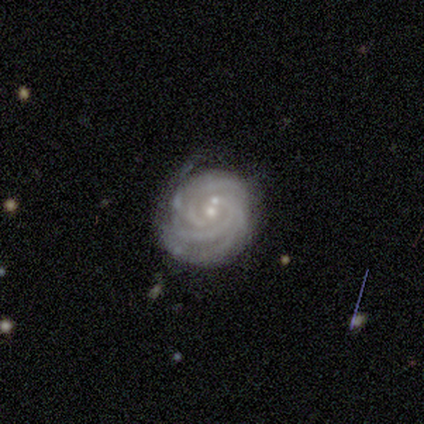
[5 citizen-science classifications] Smooth or featured? featured or disk (100%)
Edge-on disk? no (100%)
Bar? no (80%)
Spiral arms? yes (100%)
Spiral winding? tight (100%)
Spiral arm count? 3 (60%)
Bulge size? small (80%)
Merging? none (60%)